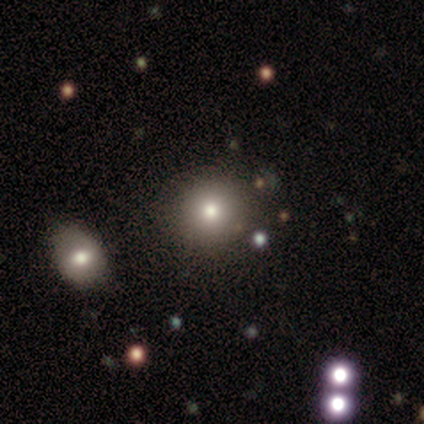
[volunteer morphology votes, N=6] Smooth or featured? smooth (67%)
How rounded? round (100%)
Merging? none (67%)